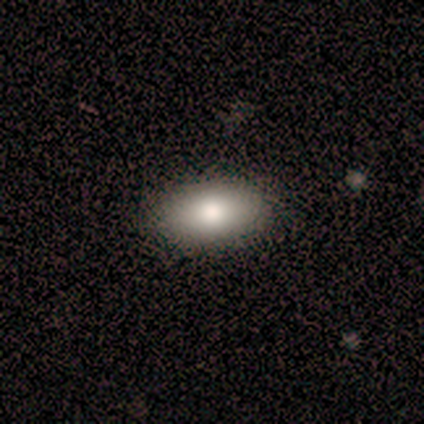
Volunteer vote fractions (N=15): Volunteers were most divided on "smooth or featured": smooth: 80%, featured or disk: 13%, star or artifact: 7%. More confident: how rounded — in between (100%); merging — none (100%).